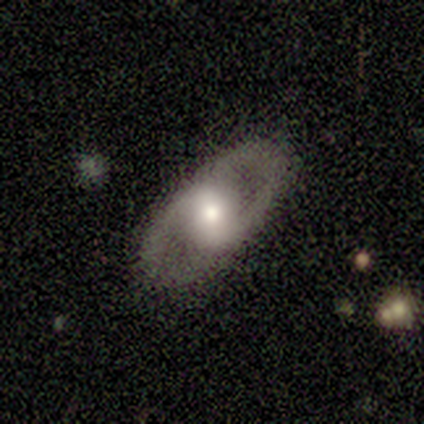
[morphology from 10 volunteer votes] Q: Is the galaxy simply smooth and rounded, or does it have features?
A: featured or disk — 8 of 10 (80%).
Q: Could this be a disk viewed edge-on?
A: no — 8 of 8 (100%).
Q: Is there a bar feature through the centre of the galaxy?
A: strong — 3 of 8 (38%, tied with weak).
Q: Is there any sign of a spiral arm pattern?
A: yes — 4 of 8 (50%, tied with no).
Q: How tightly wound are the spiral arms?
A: medium — 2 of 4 (50%).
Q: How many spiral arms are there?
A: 2 — 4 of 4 (100%).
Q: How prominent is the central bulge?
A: moderate — 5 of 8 (62%).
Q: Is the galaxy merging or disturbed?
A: none — 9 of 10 (90%).